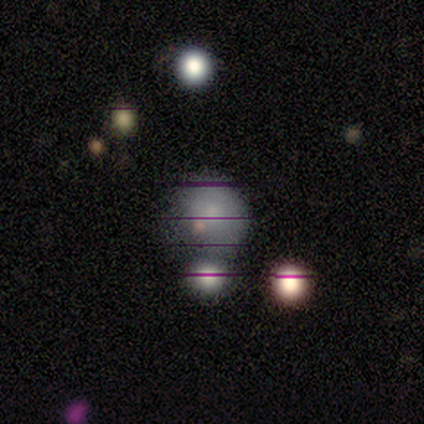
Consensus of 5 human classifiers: smooth-or-featured: smooth: 60% | star or artifact: 40% | featured or disk: 0%
  how-rounded: round: 100% | in between: 0% | cigar-shaped: 0%
  merging: none: 67% | merger: 33% | minor disturbance: 0% | major disturbance: 0%